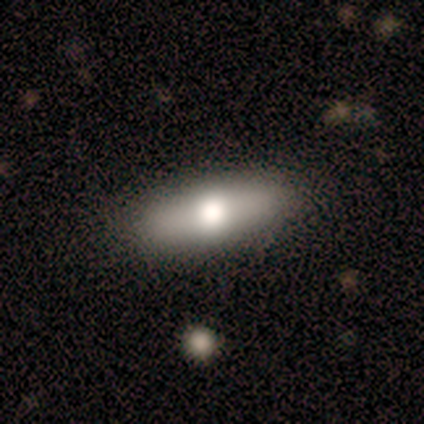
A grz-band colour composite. It shows a smooth galaxy with no disk features (100%) that is in between round and cigar-shaped (60%). Merging: none (80%).